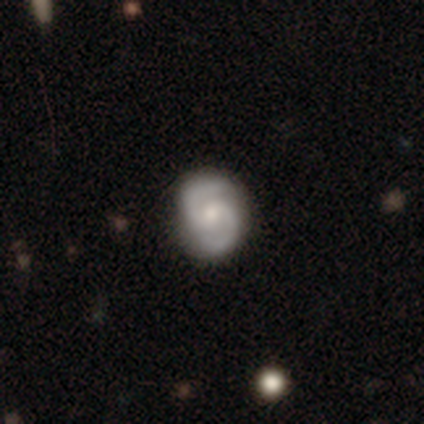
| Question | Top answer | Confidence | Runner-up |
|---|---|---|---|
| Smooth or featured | featured or disk | 85% | smooth (9%) |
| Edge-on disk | no | 98% | yes (2%) |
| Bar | weak | 51% | no (43%) |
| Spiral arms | yes | 97% | no (3%) |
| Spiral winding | medium | 58% | tight (29%) |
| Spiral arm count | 2 | 99% | can't tell (1%) |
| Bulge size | small | 53% | moderate (43%) |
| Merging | none | 90% | minor disturbance (7%) |